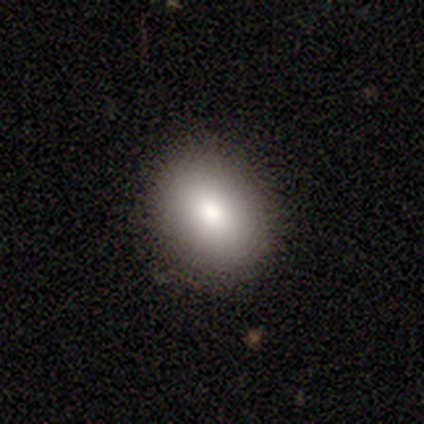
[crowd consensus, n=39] Smooth or featured?
  - smooth: 82% *
  - star or artifact: 10%
  - featured or disk: 8%
How rounded?
  - in between: 59% *
  - round: 41%
  - cigar-shaped: 0%
Merging?
  - none: 94% *
  - minor disturbance: 3%
  - major disturbance: 3%
  - merger: 0%